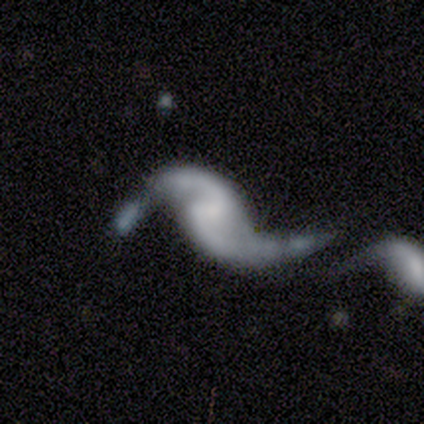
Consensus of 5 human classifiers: featured or disk 100%, smooth 0%, star or artifact 0%. Down the decision tree: edge-on disk — no (80%); bar — weak (50%, tied with no); spiral arms — yes (100%); spiral arm count — 2 (100%); spiral winding — loose (100%); bulge size — none (50%); merging — none (40%, tied with major disturbance).